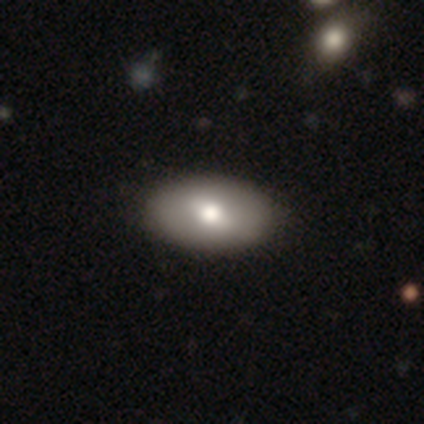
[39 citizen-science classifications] This appears to be a smooth galaxy with no disk features (67%) that is in between round and cigar-shaped (100%). Merging: none (59%).